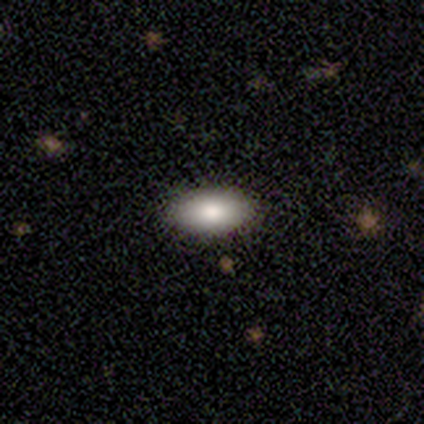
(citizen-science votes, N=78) Q: Smooth or featured?
A: smooth (83%); runner-up: featured or disk (10%)
Q: How rounded?
A: in between (98%); runner-up: round (2%)
Q: Merging?
A: none (49%); runner-up: minor disturbance (3%)